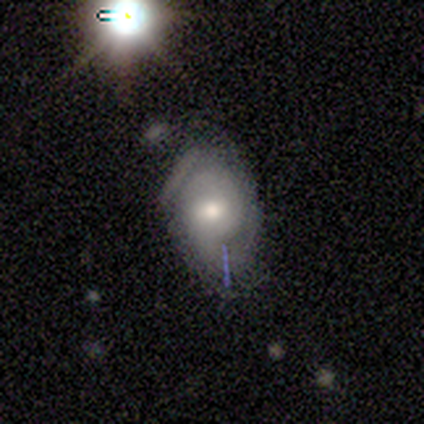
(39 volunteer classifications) Morphology: type=featured or disk (69%); edge-on=no (100%); bar=weak (48%); spiral arms=yes (85%); winding=tight (61%); arm count=2 (61%); bulge=moderate (74%); merging=none (53%).